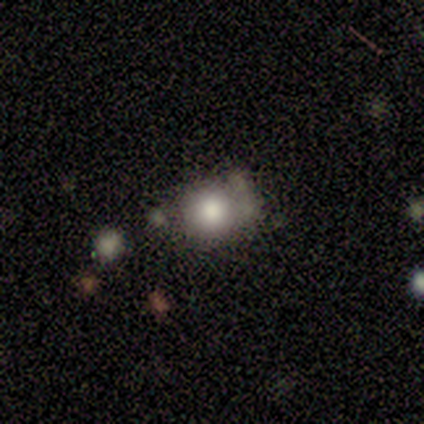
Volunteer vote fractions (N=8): Overall: smooth (75%). How rounded: round (83%). Merging: none (38%; minor disturbance 25%).